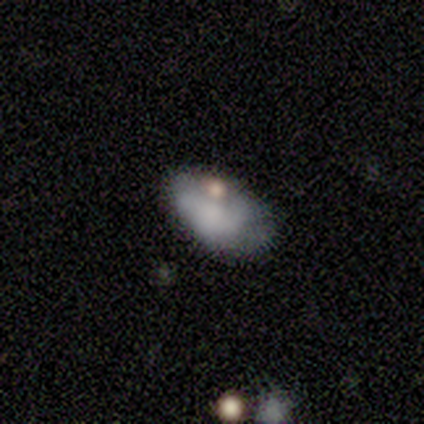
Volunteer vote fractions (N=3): smooth_or_featured: smooth (p=0.67) [alt: featured or disk p=0.33]
how_rounded: in between (p=1.00)
merging: minor disturbance (p=0.67) [alt: major disturbance p=0.33]